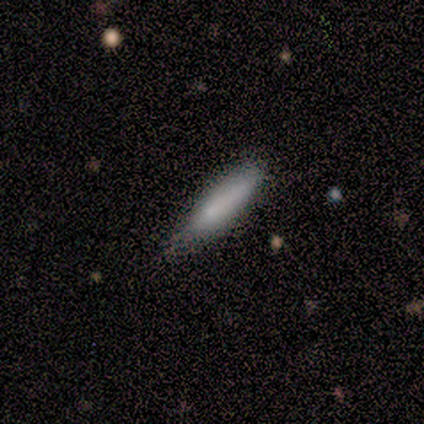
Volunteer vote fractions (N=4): Smooth or featured? smooth (100%)
How rounded? cigar-shaped (75%)
Merging? none (100%)